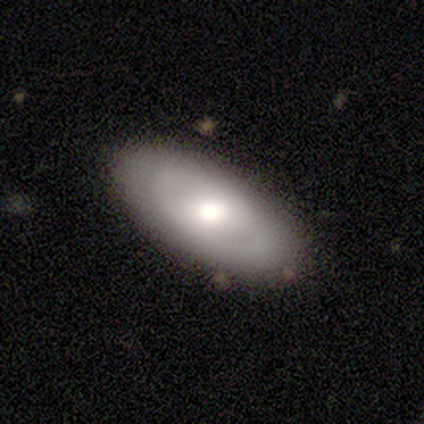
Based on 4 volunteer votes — Smooth or featured? 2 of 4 (50%) said smooth. How rounded? 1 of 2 (50%, tied with in between) said round. Merging? 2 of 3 (67%) said none.